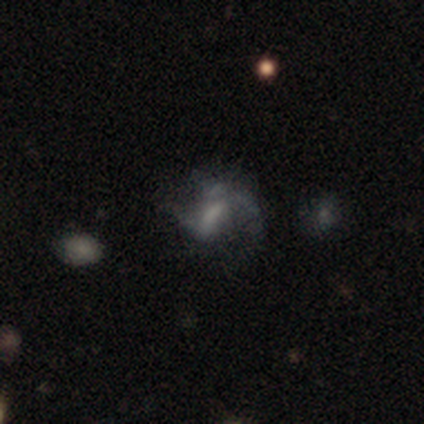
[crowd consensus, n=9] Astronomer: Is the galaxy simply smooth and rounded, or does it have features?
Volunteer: featured or disk — 78%.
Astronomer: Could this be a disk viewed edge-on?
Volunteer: no — 100%.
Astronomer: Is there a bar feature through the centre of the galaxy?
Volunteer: weak — 43% (runner-up: strong, 29%).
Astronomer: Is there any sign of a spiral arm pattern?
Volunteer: yes — 86%.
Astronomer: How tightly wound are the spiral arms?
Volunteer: medium — 50%, tied with loose at 50%.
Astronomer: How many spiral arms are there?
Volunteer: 2 — 67%.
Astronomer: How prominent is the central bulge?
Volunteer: moderate — 29%, tied with small and none at 29%.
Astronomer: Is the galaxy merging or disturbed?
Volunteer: none — 71%.